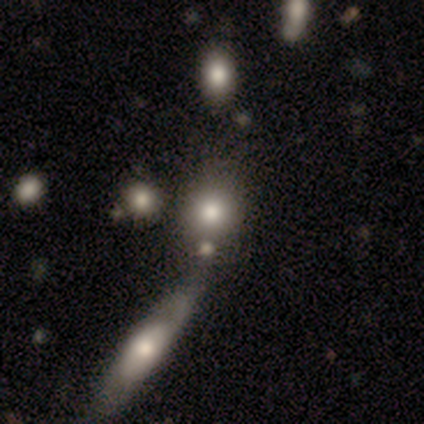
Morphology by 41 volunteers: Smooth or featured?
  - smooth: 78% *
  - featured or disk: 17%
  - star or artifact: 5%
How rounded?
  - round: 69% *
  - in between: 31%
  - cigar-shaped: 0%
Merging?
  - none: 44% *
  - merger: 41%
  - minor disturbance: 10%
  - major disturbance: 5%